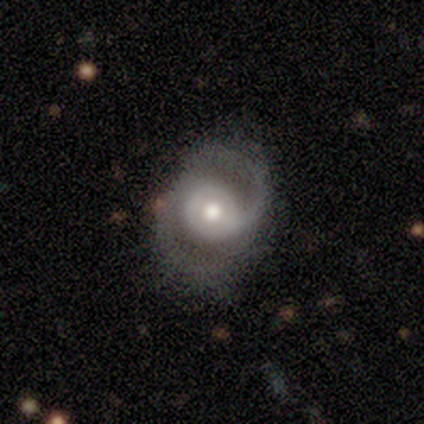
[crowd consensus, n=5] A featured or disk galaxy (80%) with no bar (100%), 2 (75%) medium (75%) spiral arms (100%) and a moderate central bulge (100%).

Vote fractions:
- Smooth or featured? featured or disk: 80% / smooth: 20% / star or artifact: 0%
- Edge-on disk? no: 100% / yes: 0%
- Bar? no: 100% / strong: 0% / weak: 0%
- Spiral arms? yes: 100% / no: 0%
- Spiral winding? medium: 75% / tight: 25% / loose: 0%
- Spiral arm count? 2: 75% / can't tell: 25% / 1: 0% / 3: 0% / 4: 0% / more than 4: 0%
- Bulge size? moderate: 100% / dominant: 0% / large: 0% / small: 0% / none: 0%
- Merging? none: 60% / minor disturbance: 20% / major disturbance: 20% / merger: 0%